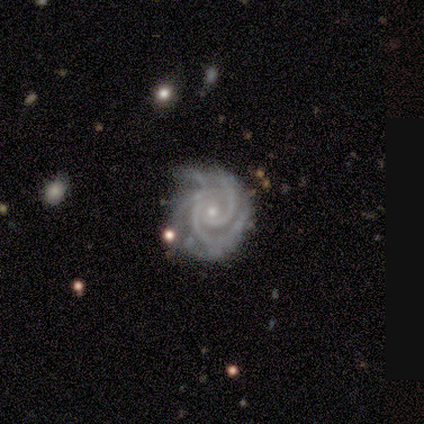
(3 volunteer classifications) A featured or disk galaxy (67%) with no bar (100%), 2 (50%, tied with 3) tight (50%, tied with medium) spiral arms (100%) and a small central bulge (100%).

Vote fractions:
- Smooth or featured? featured or disk: 67% / smooth: 33% / star or artifact: 0%
- Edge-on disk? no: 100% / yes: 0%
- Bar? no: 100% / strong: 0% / weak: 0%
- Spiral arms? yes: 100% / no: 0%
- Spiral winding? tight: 50% (tied) / medium: 50% (tied) / loose: 0%
- Spiral arm count? 2: 50% (tied) / 3: 50% (tied) / 1: 0% / 4: 0% / more than 4: 0% / can't tell: 0%
- Bulge size? small: 100% / dominant: 0% / large: 0% / moderate: 0% / none: 0%
- Merging? none: 67% / minor disturbance: 33% / major disturbance: 0% / merger: 0%